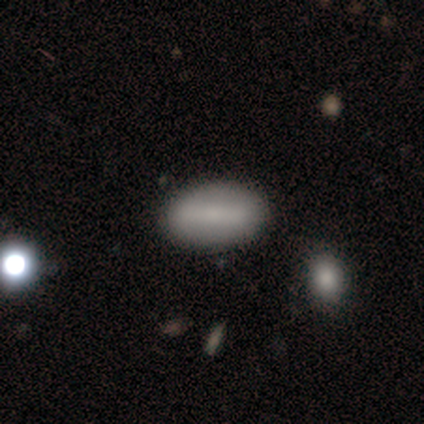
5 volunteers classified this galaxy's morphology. Smooth or featured?
  - smooth: 60% *
  - featured or disk: 40%
  - star or artifact: 0%
How rounded?
  - in between: 100% *
  - round: 0%
  - cigar-shaped: 0%
Merging?
  - none: 100% *
  - minor disturbance: 0%
  - major disturbance: 0%
  - merger: 0%